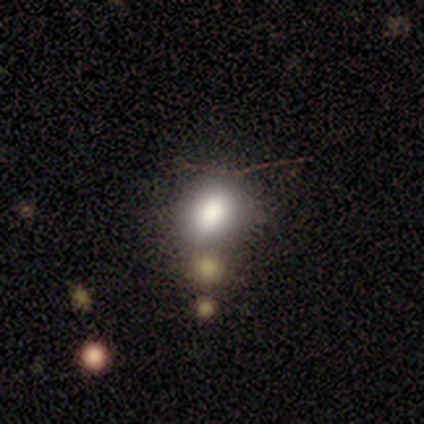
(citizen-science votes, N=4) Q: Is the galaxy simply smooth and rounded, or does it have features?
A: smooth — 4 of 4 (100%).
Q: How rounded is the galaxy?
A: in between — 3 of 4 (75%).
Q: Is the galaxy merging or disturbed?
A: none — 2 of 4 (50%, tied with minor disturbance).